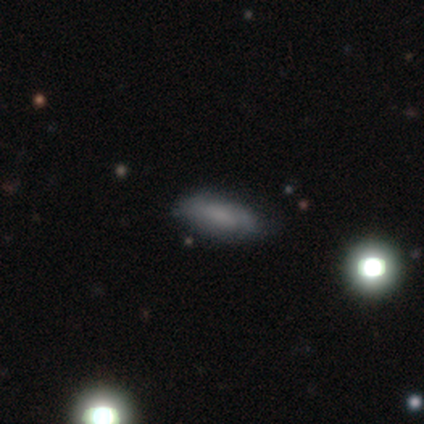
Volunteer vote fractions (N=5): Smooth or featured: smooth — 60% (featured or disk — 40%)
How rounded: in between — 67% (cigar-shaped — 33%)
Merging: none — 100%